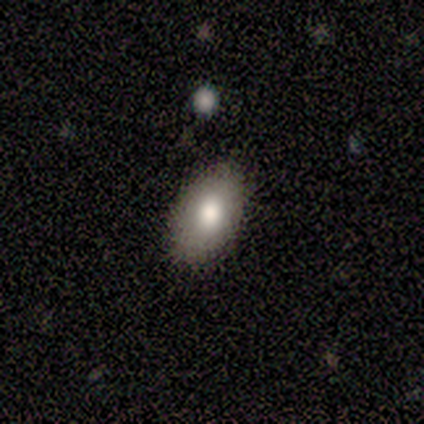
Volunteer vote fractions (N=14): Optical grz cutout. It shows a smooth galaxy with no disk features (71%) that is in between round and cigar-shaped (100%). Merging: none (91%).